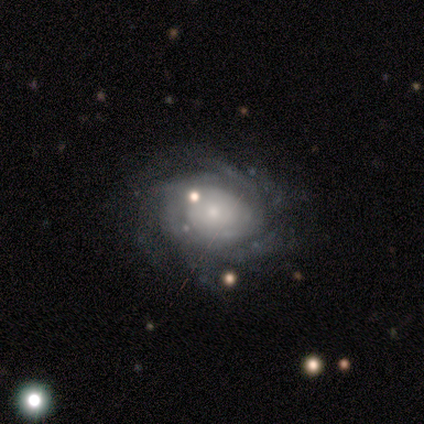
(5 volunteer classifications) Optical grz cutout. It shows a featured or disk galaxy (80%) with no bar (75%), more than 4 (50%) tight (75%) spiral arms (100%) and a small central bulge (50%). Merging: minor disturbance (60%).